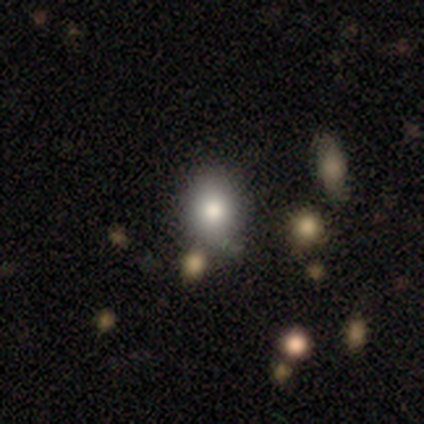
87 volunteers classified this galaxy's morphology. Smooth or featured? 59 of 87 (68%) said smooth. How rounded? 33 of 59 (56%) said in between. Merging? 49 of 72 (68%) said none.